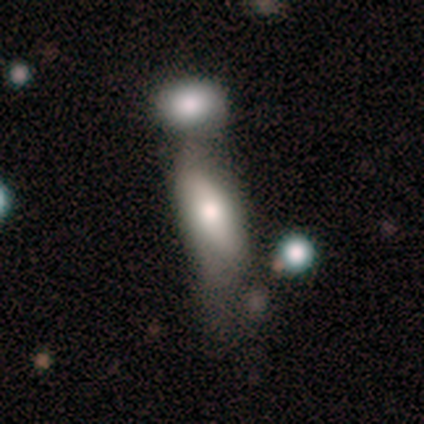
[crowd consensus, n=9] Smooth or featured?
  - smooth: 89% *
  - featured or disk: 11%
  - star or artifact: 0%
How rounded?
  - in between: 88% *
  - cigar-shaped: 12%
  - round: 0%
Merging?
  - none: 44% *
  - merger: 33%
  - minor disturbance: 22%
  - major disturbance: 0%